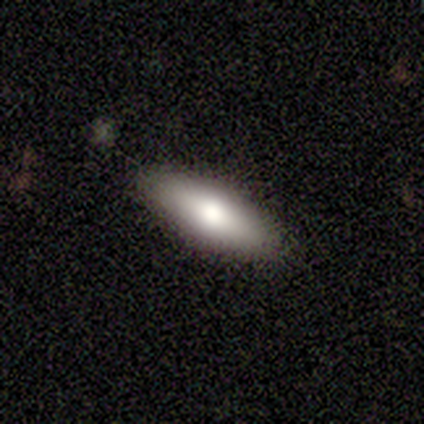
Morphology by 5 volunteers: This is clearly a smooth galaxy (80%). How rounded: clearly cigar-shaped (100%). Merging: likely none (75%).